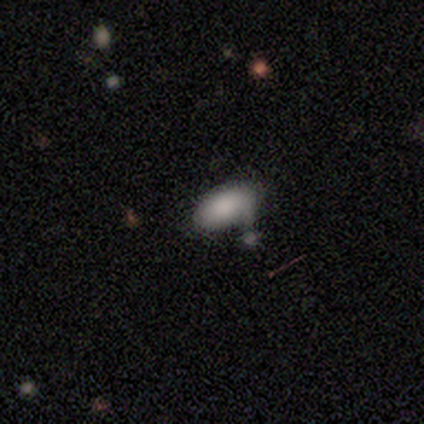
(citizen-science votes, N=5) Smooth or featured?
  - smooth: 100% *
  - featured or disk: 0%
  - star or artifact: 0%
How rounded?
  - in between: 100% *
  - round: 0%
  - cigar-shaped: 0%
Merging?
  - minor disturbance: 60% *
  - none: 20%
  - merger: 20%
  - major disturbance: 0%